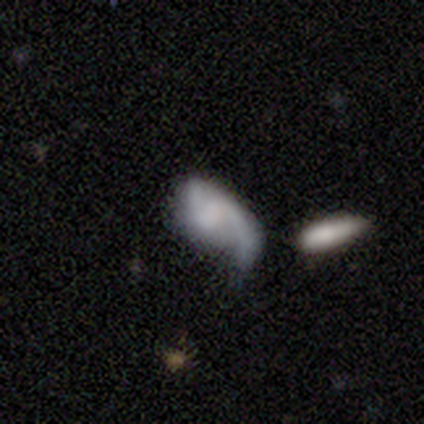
Smooth or featured: featured or disk — 64% (smooth — 33%)
Edge-on disk: no — 92% (yes — 8%)
Bar: weak — 48% (no — 43%)
Spiral arms: yes — 87% (no — 13%)
Spiral winding: loose — 55% (medium — 35%)
Spiral arm count: 2 — 80% (1 — 15%)
Bulge size: none — 57% (moderate — 17%)
Merging: major disturbance — 50% (minor disturbance — 26%)